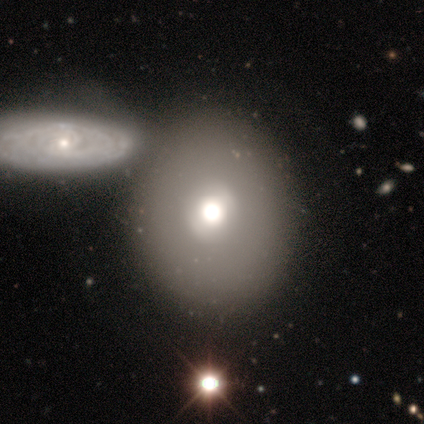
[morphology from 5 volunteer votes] Overall: smooth (80%). How rounded: round (50%, tied with in between). Merging: none (75%).